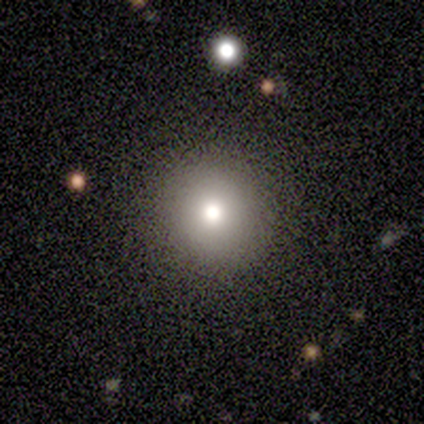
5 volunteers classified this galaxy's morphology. Smooth or featured?
  - smooth: 100% *
  - featured or disk: 0%
  - star or artifact: 0%
How rounded?
  - round: 100% *
  - in between: 0%
  - cigar-shaped: 0%
Merging?
  - none: 100% *
  - minor disturbance: 0%
  - major disturbance: 0%
  - merger: 0%